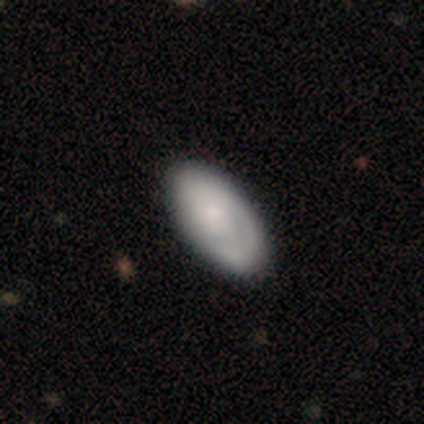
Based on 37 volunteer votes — Smooth or featured: smooth — 62% (featured or disk — 38%)
How rounded: in between — 96% (cigar-shaped — 4%)
Merging: none — 49% (minor disturbance — 24%)